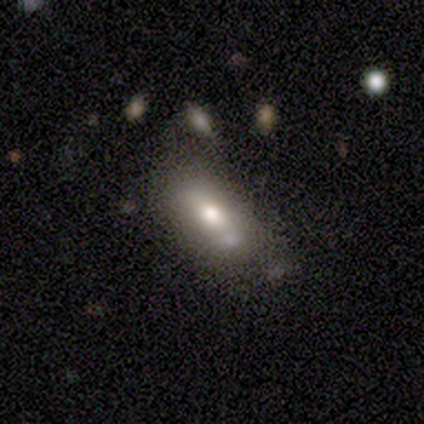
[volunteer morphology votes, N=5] Smooth or featured? smooth (60%)
How rounded? in between (100%)
Merging? none (80%)